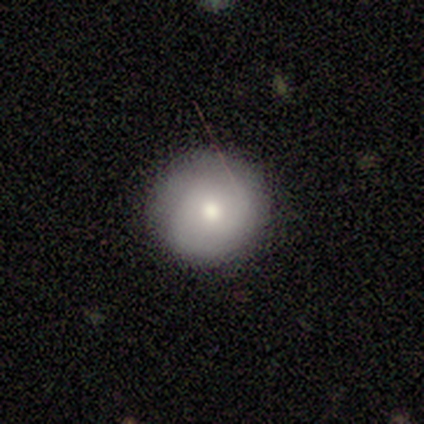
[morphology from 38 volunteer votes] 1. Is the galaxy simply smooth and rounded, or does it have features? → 89% smooth, 11% featured or disk, 0% star or artifact.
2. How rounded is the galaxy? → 97% round, 3% in between, 0% cigar-shaped.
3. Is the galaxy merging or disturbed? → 89% none, 5% minor disturbance, 5% major disturbance, 0% merger.